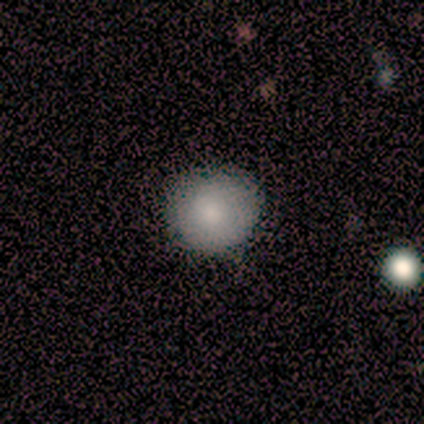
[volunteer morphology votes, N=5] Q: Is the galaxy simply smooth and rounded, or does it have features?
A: smooth — 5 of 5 (100%).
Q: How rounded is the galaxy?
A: round — 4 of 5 (80%).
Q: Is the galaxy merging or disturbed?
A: none — 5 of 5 (100%).